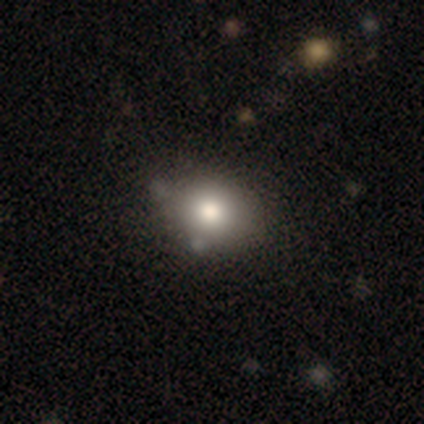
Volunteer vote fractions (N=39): Morphology: type=smooth (69%); roundness=in between (59%); merging=none (66%).